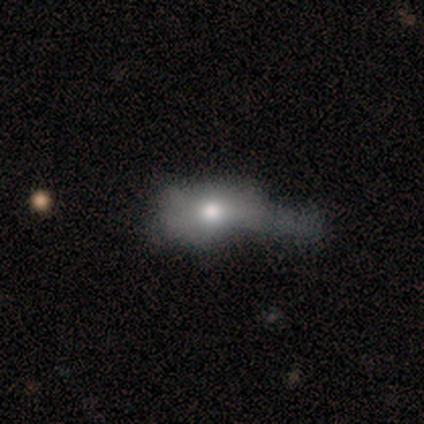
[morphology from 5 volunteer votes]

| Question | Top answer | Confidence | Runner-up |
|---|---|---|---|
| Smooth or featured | smooth | 80% | featured or disk (20%) |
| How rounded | in between | 75% | cigar-shaped (25%) |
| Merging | minor disturbance | 40% | tied: major disturbance (40%) |